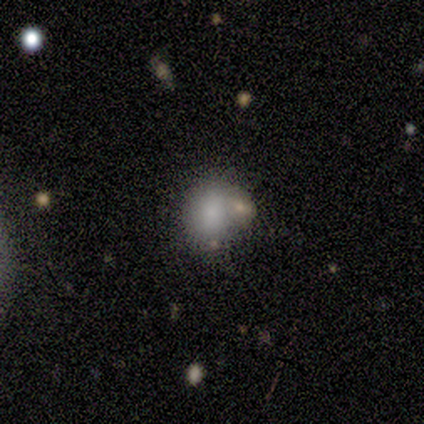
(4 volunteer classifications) Smooth or featured: smooth — 100%
How rounded: round — 50% (tied with in between — 50%)
Merging: none — 75% (merger — 25%)